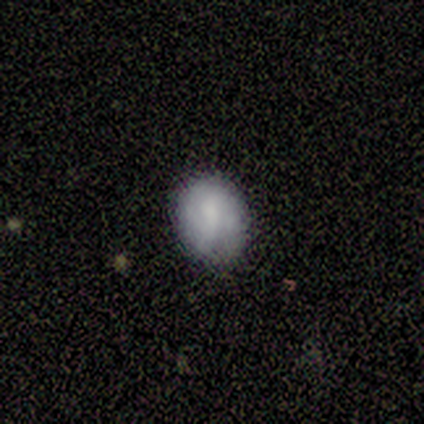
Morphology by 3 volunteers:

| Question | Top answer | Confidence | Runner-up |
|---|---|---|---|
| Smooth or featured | smooth | 67% | featured or disk (33%) |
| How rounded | round | 100% | — |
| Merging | none | 67% | minor disturbance (33%) |